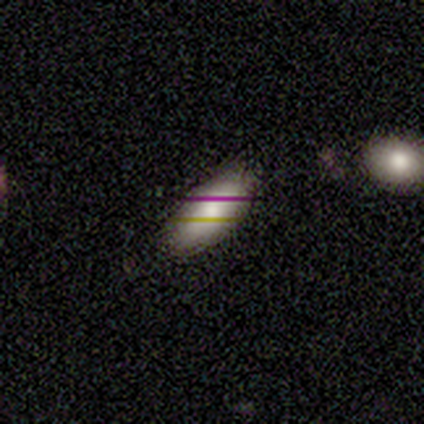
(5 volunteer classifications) smooth-or-featured: smooth: 100% | featured or disk: 0% | star or artifact: 0%
  how-rounded: in between: 80% | round: 20% | cigar-shaped: 0%
  merging: none: 80% | minor disturbance: 20% | major disturbance: 0% | merger: 0%